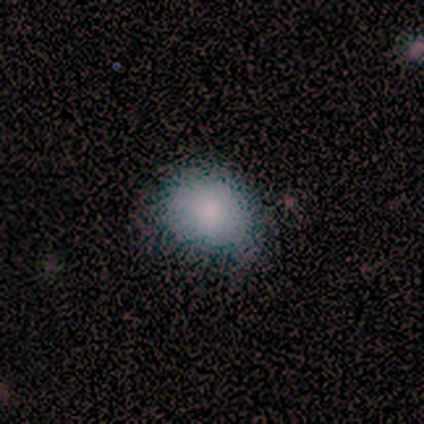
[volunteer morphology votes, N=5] Volunteers were most divided on "merging": none: 60%, minor disturbance: 40%, major disturbance: 0%, merger: 0%. More confident: smooth or featured — smooth (100%); how rounded — in between (80%).